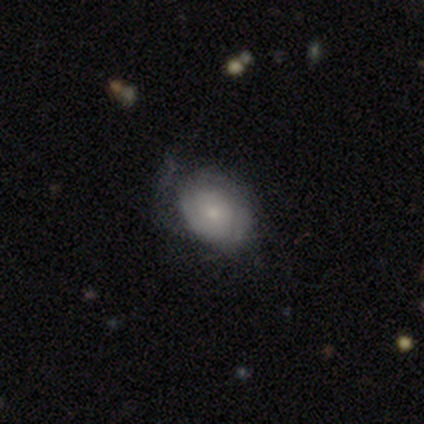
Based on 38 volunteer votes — Morphology: type=featured or disk (45%); edge-on=no (100%); bar=no (76%); spiral arms=yes (65%); winding=tight (73%); arm count=can't tell (36%); bulge=small (41%); merging=minor disturbance (45%).